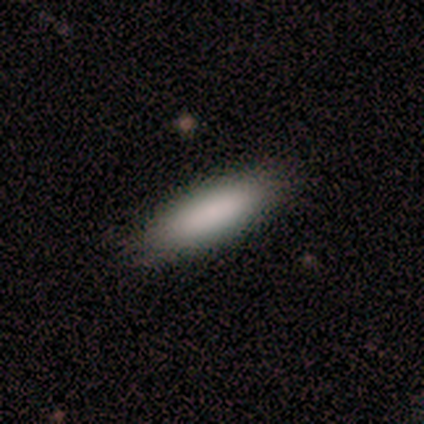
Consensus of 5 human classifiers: Smooth or featured?
  - smooth: 100% *
  - featured or disk: 0%
  - star or artifact: 0%
How rounded?
  - in between: 80% *
  - cigar-shaped: 20%
  - round: 0%
Merging?
  - none: 100% *
  - minor disturbance: 0%
  - major disturbance: 0%
  - merger: 0%